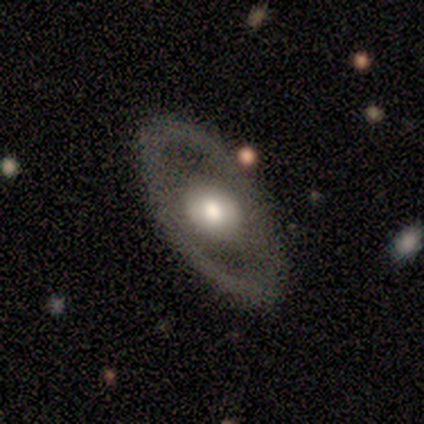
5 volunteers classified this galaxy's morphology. Smooth or featured? 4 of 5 (80%) said smooth. How rounded? 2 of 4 (50%, tied with in between) said round. Merging? 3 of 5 (60%) said none.